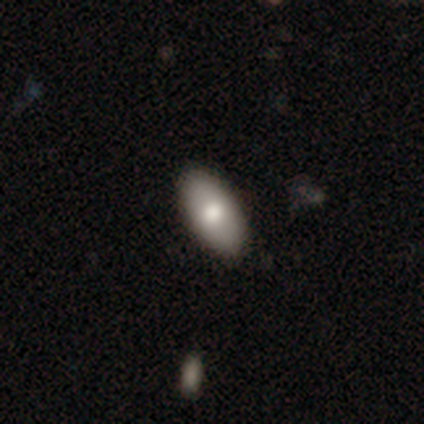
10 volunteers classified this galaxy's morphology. Smooth or featured? 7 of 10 (70%) said smooth. How rounded? 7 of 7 (100%) said in between. Merging? 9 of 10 (90%) said none.